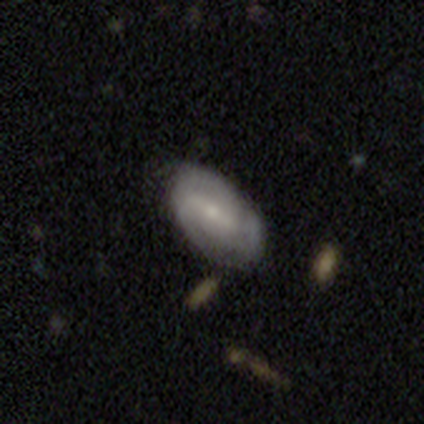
Smooth or featured: featured or disk — 80% (smooth — 20%)
Edge-on disk: no — 100%
Bar: weak — 50% (strong — 25%)
Spiral arms: yes — 100%
Spiral winding: medium — 50% (tight — 25%)
Spiral arm count: 3 — 50% (tied with can't tell — 50%)
Bulge size: small — 75% (moderate — 25%)
Merging: none — 80% (minor disturbance — 20%)